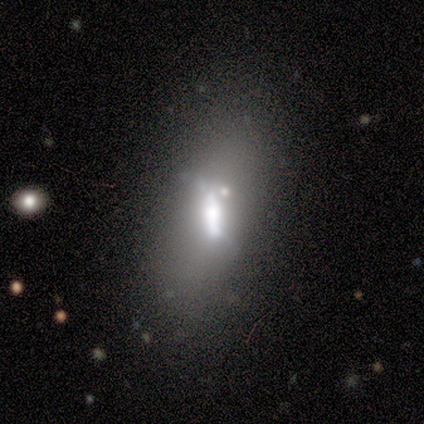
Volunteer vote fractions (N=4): smooth_or_featured: featured or disk (p=0.75) [alt: smooth p=0.25]
disk_edge_on: no (p=0.67) [alt: yes p=0.33]
bar: strong (p=0.50) [tied with: weak p=0.50]
has_spiral_arms: no (p=1.00)
bulge_size: moderate (p=1.00)
merging: none (p=0.50) [alt: minor disturbance p=0.25]